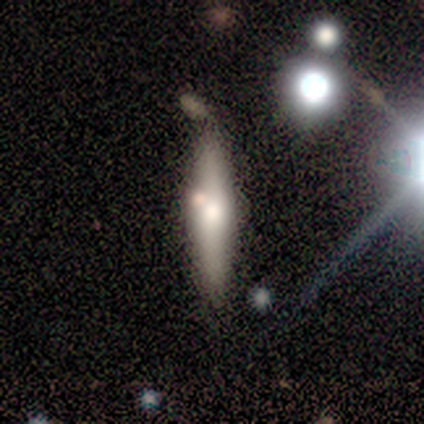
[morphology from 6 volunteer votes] Volunteers were most divided on "smooth or featured": smooth: 67%, featured or disk: 33%, star or artifact: 0%. More confident: how rounded — cigar-shaped (100%); merging — none (83%).